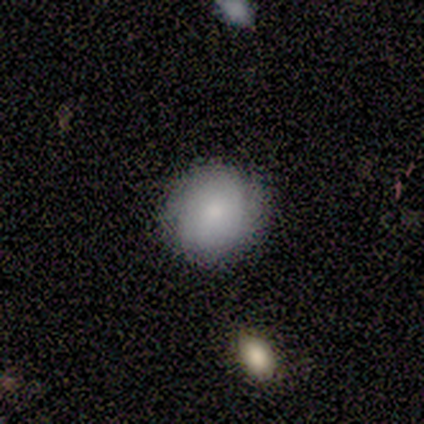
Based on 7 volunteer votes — This appears to be a smooth galaxy with no disk features (57%) that is round (75%). Merging: none (71%).